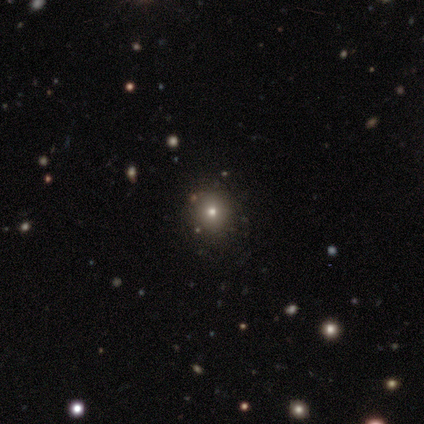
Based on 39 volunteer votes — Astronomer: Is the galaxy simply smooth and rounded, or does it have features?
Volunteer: smooth — 49% (runner-up: star or artifact, 41%).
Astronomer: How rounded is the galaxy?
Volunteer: round — 89%.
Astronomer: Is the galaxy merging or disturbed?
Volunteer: none — 91%.